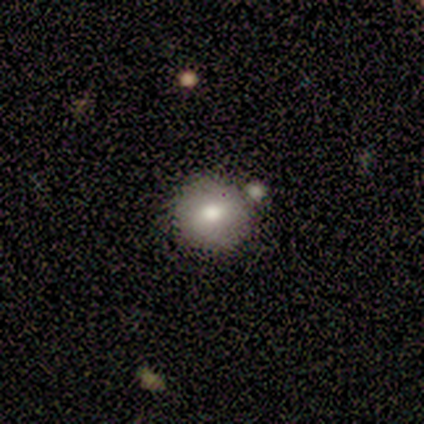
A smooth galaxy with no disk features (100%) that is round (80%). Merging: none (60%).